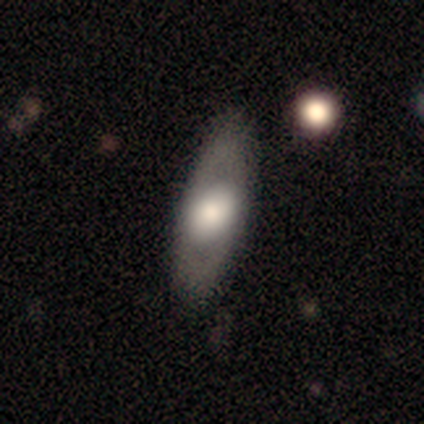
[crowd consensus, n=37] Volunteers were most divided on "smooth or featured": featured or disk: 62%, smooth: 32%, star or artifact: 5%. More confident: bar — no (88%); merging — none (83%); spiral arms — no (75%); edge-on disk — no (70%); bulge size — large (69%).